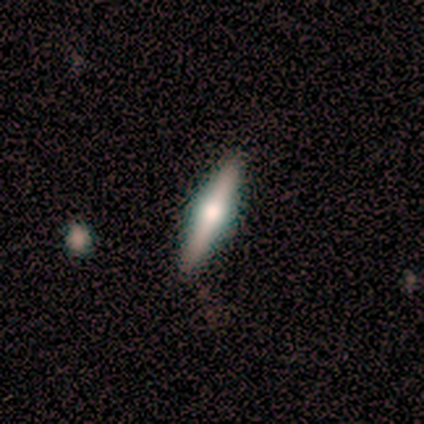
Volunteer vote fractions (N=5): Smooth or featured?
  - featured or disk: 80% *
  - star or artifact: 20%
  - smooth: 0%
Edge-on disk?
  - yes: 100% *
  - no: 0%
Edge-on bulge?
  - rounded: 100% *
  - boxy: 0%
  - none: 0%
Merging?
  - none: 100% *
  - minor disturbance: 0%
  - major disturbance: 0%
  - merger: 0%